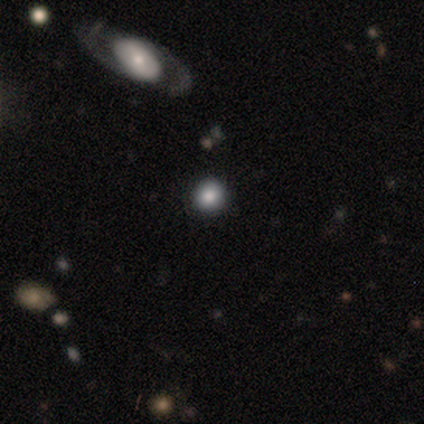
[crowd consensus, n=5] Smooth or featured: smooth — 60% (star or artifact — 40%)
How rounded: round — 100%
Merging: none — 67% (minor disturbance — 33%)